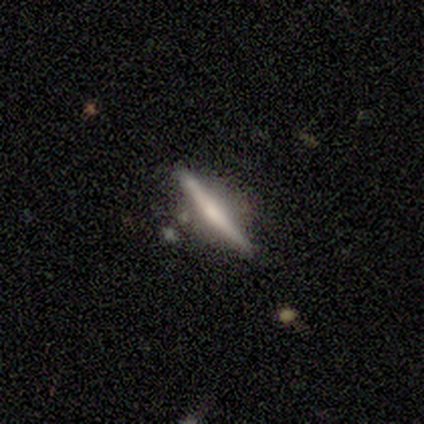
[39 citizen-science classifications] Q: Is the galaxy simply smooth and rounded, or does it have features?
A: featured or disk — 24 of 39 (62%).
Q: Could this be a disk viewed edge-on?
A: yes — 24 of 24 (100%).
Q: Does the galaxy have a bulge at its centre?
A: none — 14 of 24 (58%).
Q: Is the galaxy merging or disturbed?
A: none — 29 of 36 (81%).